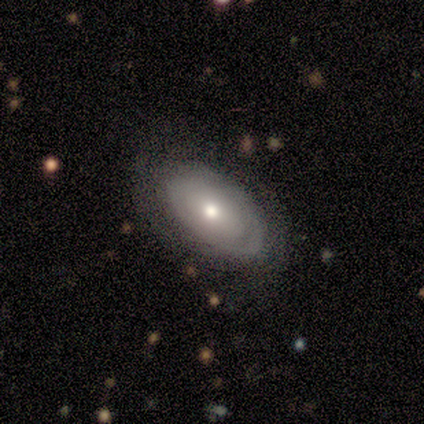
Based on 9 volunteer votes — smooth_or_featured: featured or disk (p=0.56) [alt: smooth p=0.44]
disk_edge_on: no (p=1.00)
bar: no (p=1.00)
has_spiral_arms: yes (p=0.60) [alt: no p=0.40]
spiral_winding: tight (p=0.33) [tied with: medium p=0.33, loose p=0.33]
spiral_arm_count: 1 (p=0.33) [tied with: 2 p=0.33, can't tell p=0.33]
bulge_size: moderate (p=0.60) [alt: large p=0.40]
merging: none (p=0.67) [alt: minor disturbance p=0.33]